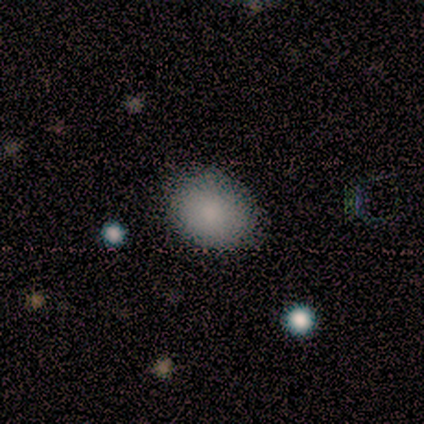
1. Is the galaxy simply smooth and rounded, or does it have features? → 100% smooth, 0% featured or disk, 0% star or artifact.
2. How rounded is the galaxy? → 75% round, 25% in between, 0% cigar-shaped.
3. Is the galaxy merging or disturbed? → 100% none, 0% minor disturbance, 0% major disturbance, 0% merger.